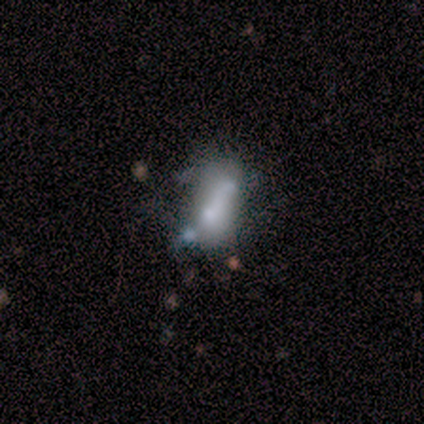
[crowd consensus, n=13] Smooth or featured? 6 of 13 (46%) said smooth. How rounded? 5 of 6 (83%) said in between. Merging? 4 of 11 (36%) said merger.